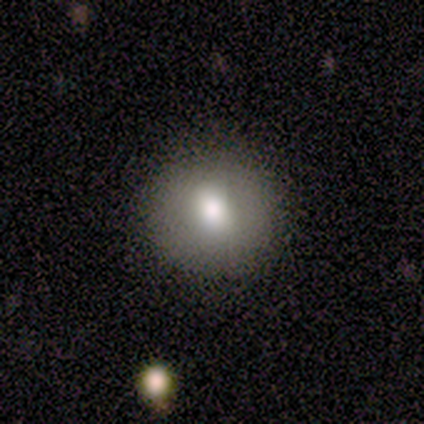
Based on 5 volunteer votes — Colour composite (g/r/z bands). It shows a smooth galaxy with no disk features (100%) that is round (100%). Merging: none (80%).